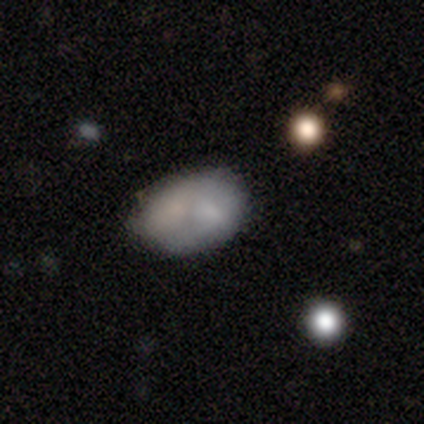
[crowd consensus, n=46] Smooth or featured?
  - smooth: 78% *
  - featured or disk: 13%
  - star or artifact: 9%
How rounded?
  - in between: 83% *
  - round: 17%
  - cigar-shaped: 0%
Merging?
  - none: 40% *
  - merger: 36%
  - minor disturbance: 17%
  - major disturbance: 7%